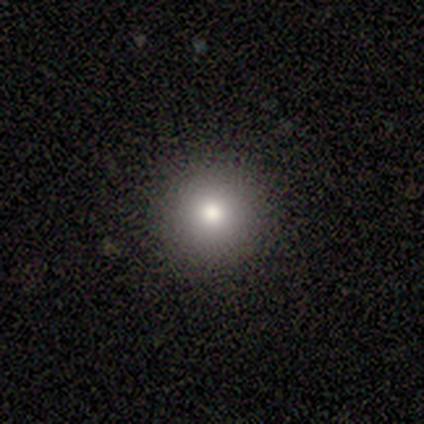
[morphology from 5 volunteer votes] A smooth galaxy with no disk features (60%) that is round (100%).

Vote fractions:
- Smooth or featured? smooth: 60% / featured or disk: 20% / star or artifact: 20%
- How rounded? round: 100% / in between: 0% / cigar-shaped: 0%
- Merging? none: 100% / minor disturbance: 0% / major disturbance: 0% / merger: 0%